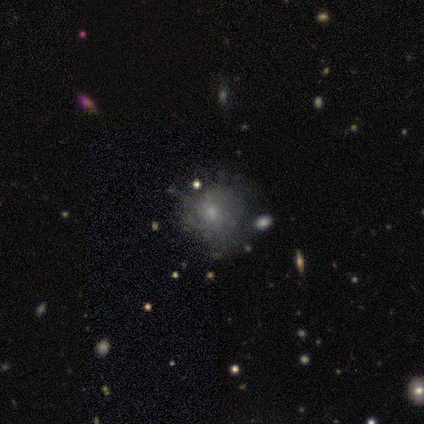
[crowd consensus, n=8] Smooth or featured? smooth (50%, tied with featured or disk)
How rounded? round (100%)
Merging? none (50%, tied with minor disturbance)